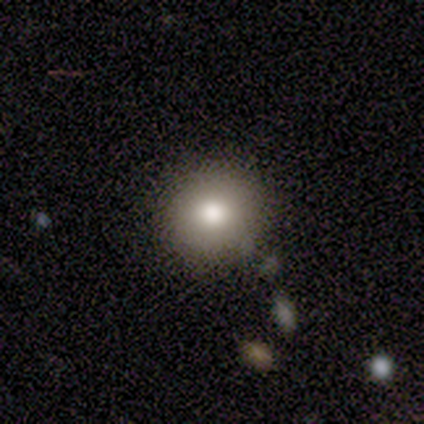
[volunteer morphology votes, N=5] Smooth or featured? 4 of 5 (80%) said smooth. How rounded? 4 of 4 (100%) said round. Merging? 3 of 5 (60%) said none.